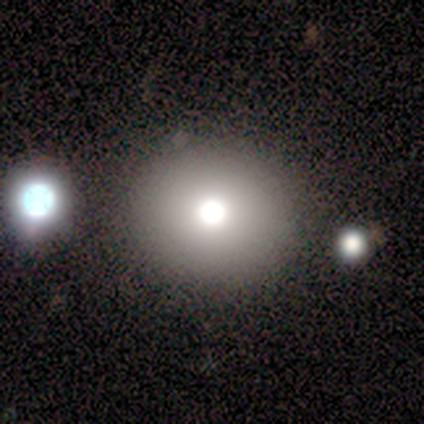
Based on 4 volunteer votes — Overall: smooth (50%; featured or disk 25%). How rounded: round (100%). Merging: none (67%; major disturbance 33%).